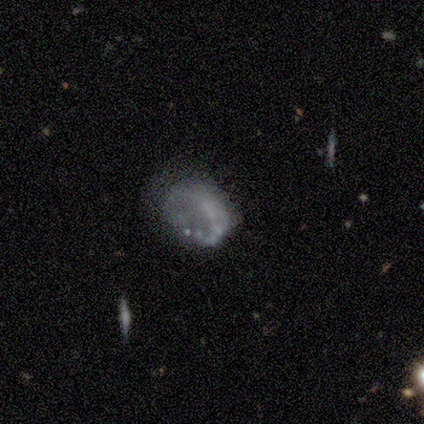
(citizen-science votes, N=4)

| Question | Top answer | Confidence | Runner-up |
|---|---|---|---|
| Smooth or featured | featured or disk | 75% | star or artifact (25%) |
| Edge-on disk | no | 100% | — |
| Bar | no | 67% | weak (33%) |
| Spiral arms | no | 100% | — |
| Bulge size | none | 100% | — |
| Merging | minor disturbance | 100% | — |